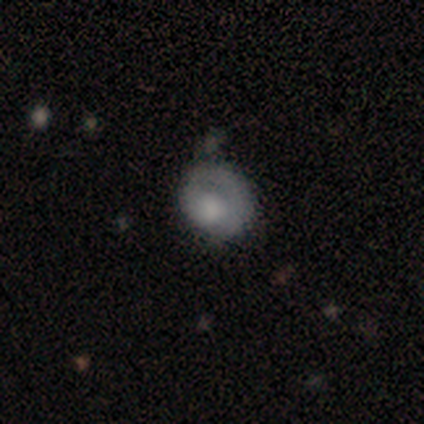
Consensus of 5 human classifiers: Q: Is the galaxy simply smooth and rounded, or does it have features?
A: smooth — 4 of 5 (80%).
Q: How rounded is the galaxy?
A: round — 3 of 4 (75%).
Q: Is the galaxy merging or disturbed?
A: none — 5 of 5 (100%).